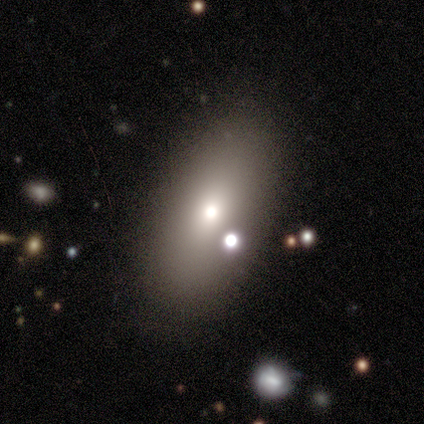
Smooth or featured? smooth (80%)
How rounded? in between (100%)
Merging? none (80%)